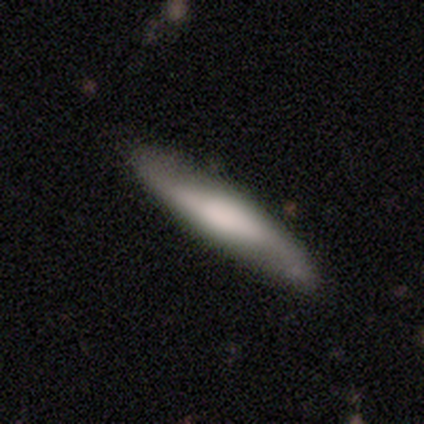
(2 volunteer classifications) This is clearly a featured or disk galaxy (100%). It is clearly viewed edge-on (100%). Edge-on bulge: clearly rounded (100%). Merging: clearly none (100%).